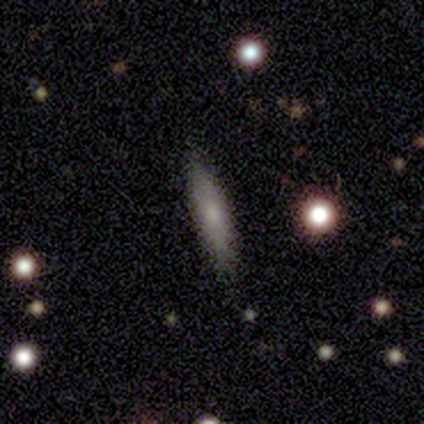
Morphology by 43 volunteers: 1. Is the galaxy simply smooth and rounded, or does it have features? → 67% smooth, 30% featured or disk, 2% star or artifact.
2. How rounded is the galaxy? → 97% cigar-shaped, 3% in between, 0% round.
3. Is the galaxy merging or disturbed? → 83% none, 17% minor disturbance, 0% major disturbance, 0% merger.